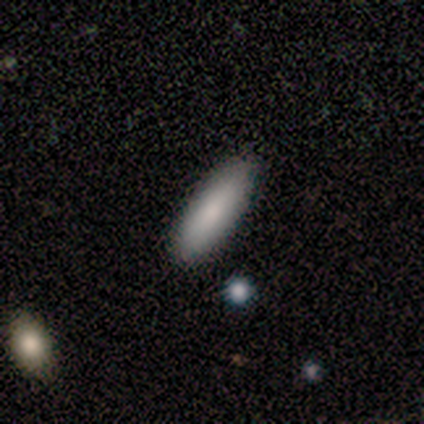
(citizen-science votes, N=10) Smooth or featured? 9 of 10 (90%) said smooth. How rounded? 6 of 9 (67%) said in between. Merging? 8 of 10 (80%) said none.